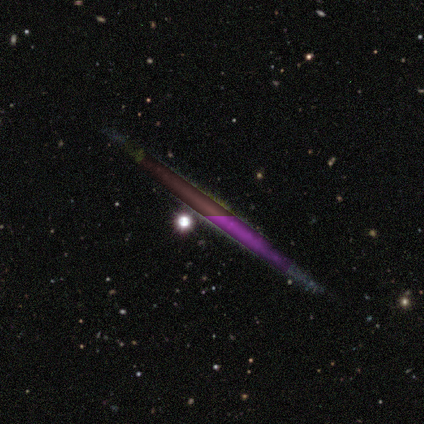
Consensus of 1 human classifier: A star or artifact, not a galaxy (100%).